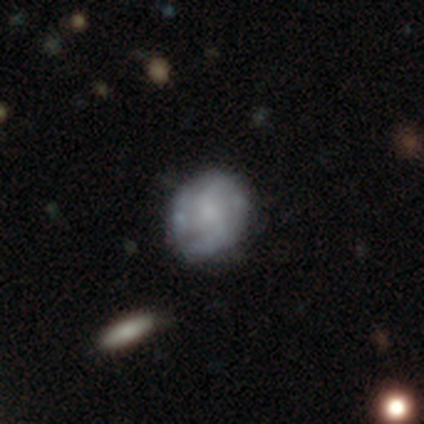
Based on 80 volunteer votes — Overall: featured or disk (61%; smooth 32%). Edge-on disk: no (98%). Bar: no (65%; weak 31%). Spiral arms: yes (56%; no 44%). Spiral arm count: can't tell (44%; 2 33%). Spiral winding: loose (52%; medium 26%). Bulge size: small (40%; moderate 35%). Merging: none (48%; minor disturbance 12%).